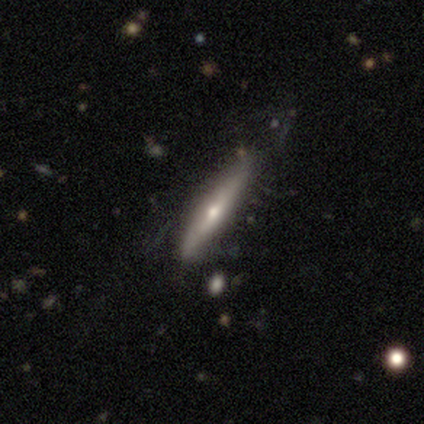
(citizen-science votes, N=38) Volunteers were most divided on "smooth or featured": featured or disk: 66%, smooth: 34%, star or artifact: 0%. More confident: edge-on bulge — rounded (100%); edge-on disk — yes (92%); merging — none (55%).